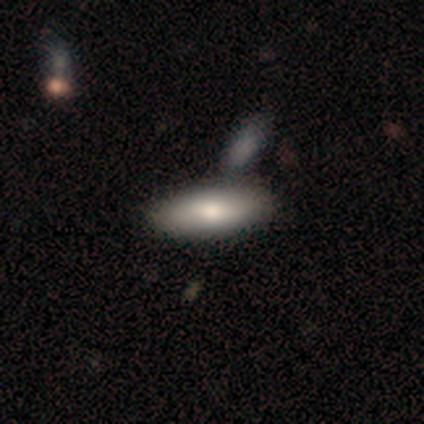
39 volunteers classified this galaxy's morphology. Q: Smooth or featured?
A: smooth (79%); runner-up: featured or disk (18%)
Q: How rounded?
A: in between (68%); runner-up: cigar-shaped (32%)
Q: Merging?
A: none (61%); runner-up: merger (13%)